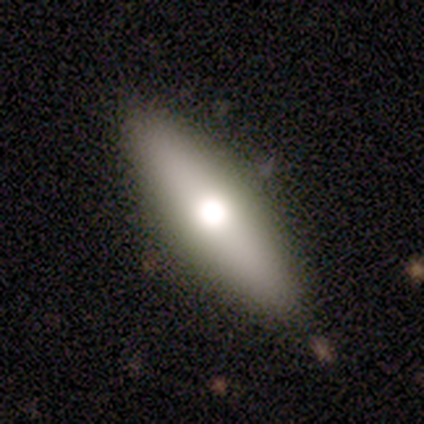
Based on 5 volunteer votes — This is marginally a smooth galaxy (40%, tied with featured or disk). How rounded: possibly in between (50%, tied with cigar-shaped). Merging: clearly none (100%).